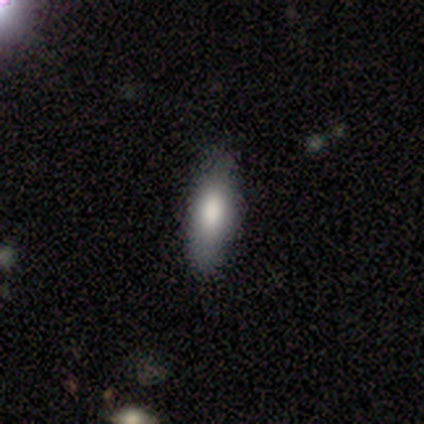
Q: Smooth or featured?
A: smooth (74%); runner-up: featured or disk (21%)
Q: How rounded?
A: in between (62%); runner-up: cigar-shaped (38%)
Q: Merging?
A: none (78%); runner-up: minor disturbance (16%)